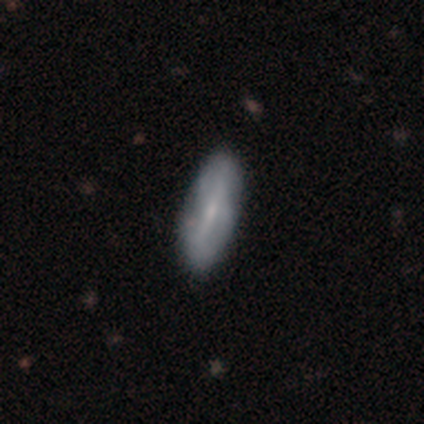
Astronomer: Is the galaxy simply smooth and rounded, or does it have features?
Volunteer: smooth — 60% (runner-up: featured or disk, 40%).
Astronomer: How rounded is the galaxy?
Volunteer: in between — 67%.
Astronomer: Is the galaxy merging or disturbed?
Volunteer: none — 80%.